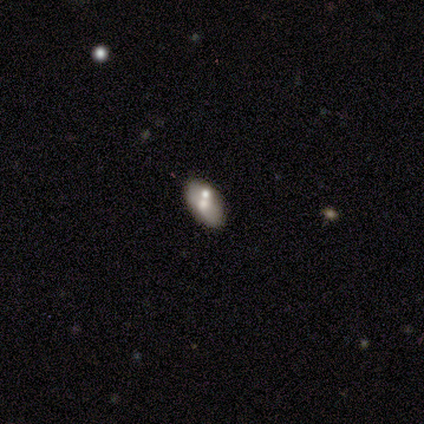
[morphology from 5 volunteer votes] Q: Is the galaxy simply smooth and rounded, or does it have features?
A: smooth — 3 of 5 (60%).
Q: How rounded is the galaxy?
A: in between — 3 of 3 (100%).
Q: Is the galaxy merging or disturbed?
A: none — 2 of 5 (40%, tied with minor disturbance).